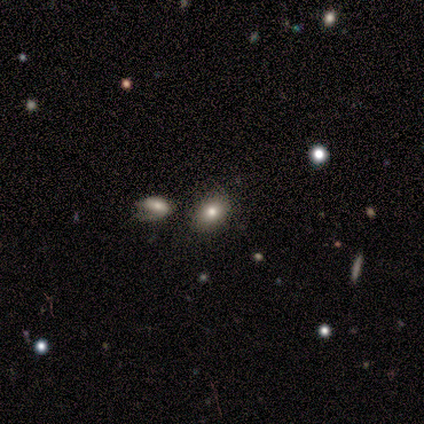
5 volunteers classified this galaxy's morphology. This is clearly a smooth galaxy (80%). How rounded: likely round (75%). Merging: clearly none (100%).